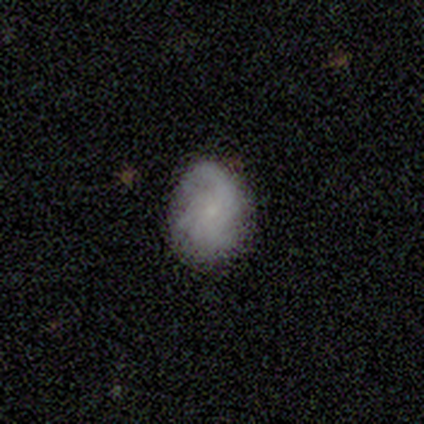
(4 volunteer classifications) Morphology: type=featured or disk (75%); edge-on=no (100%); bar=no (67%); spiral arms=yes (100%); winding=tight (33%, tied with medium and loose); arm count=2 (33%, tied with 3 and 4); bulge=small (100%); merging=none (75%).